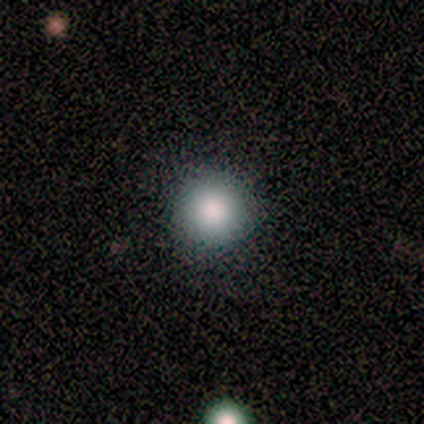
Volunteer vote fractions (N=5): smooth_or_featured: smooth (p=0.80) [alt: featured or disk p=0.20]
how_rounded: round (p=1.00)
merging: none (p=0.60) [alt: minor disturbance p=0.40]